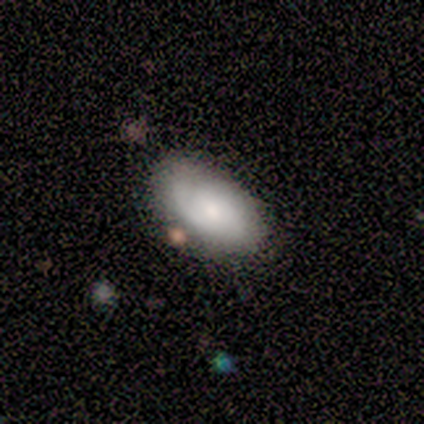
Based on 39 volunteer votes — Smooth or featured: smooth — 64% (featured or disk — 31%)
How rounded: in between — 96% (cigar-shaped — 4%)
Merging: none — 81% (minor disturbance — 11%)